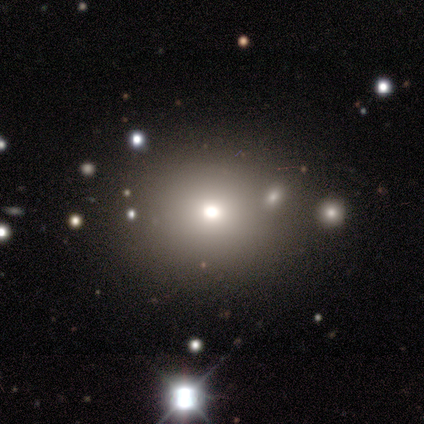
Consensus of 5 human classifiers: This appears to be a smooth galaxy with no disk features (60%) that is round (67%). Merging: none (100%).